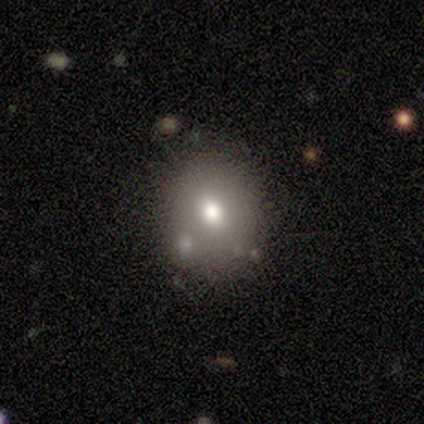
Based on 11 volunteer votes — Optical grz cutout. It shows a smooth galaxy with no disk features (73%) that is round (62%). Merging: none (60%).